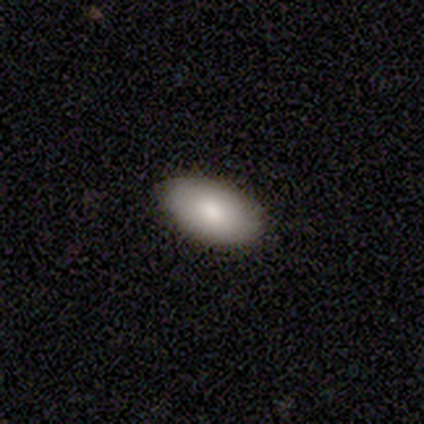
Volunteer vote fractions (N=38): Smooth or featured?
  - smooth: 89% *
  - featured or disk: 5%
  - star or artifact: 5%
How rounded?
  - in between: 100% *
  - round: 0%
  - cigar-shaped: 0%
Merging?
  - none: 83% *
  - minor disturbance: 17%
  - major disturbance: 0%
  - merger: 0%